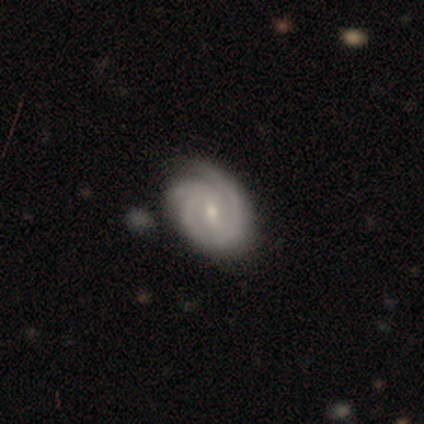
This is clearly a featured or disk galaxy (90%). It is clearly not viewed edge-on (99%). Bar: likely weak (67%). Spiral arm pattern: clearly yes (99%). Spiral arm count: marginally 3 (42%). Spiral winding: likely tight (76%). Central bulge: possibly small (49%). Merging: likely none (61%).